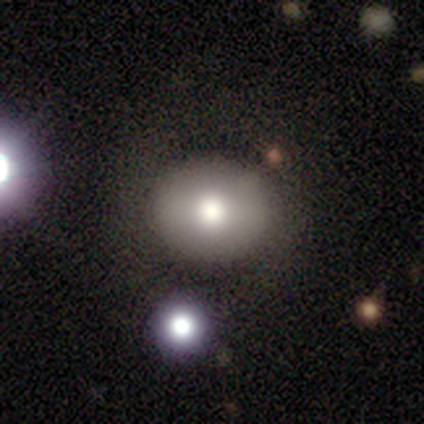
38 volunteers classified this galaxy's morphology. Overall: smooth (66%; featured or disk 26%). How rounded: round (72%). Merging: none (86%).